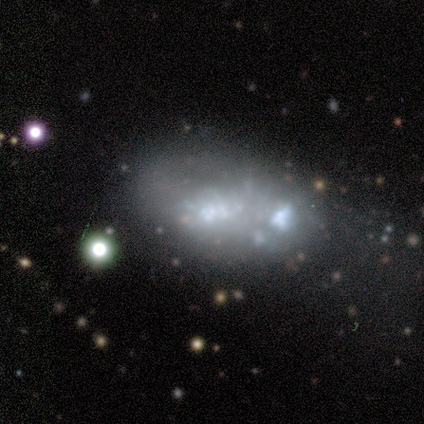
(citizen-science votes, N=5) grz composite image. It shows a featured or disk galaxy (80%) with no bar (75%), no spiral arms (100%) and a large central bulge (25%, tied with moderate, small and none). Merging: major disturbance (50%).